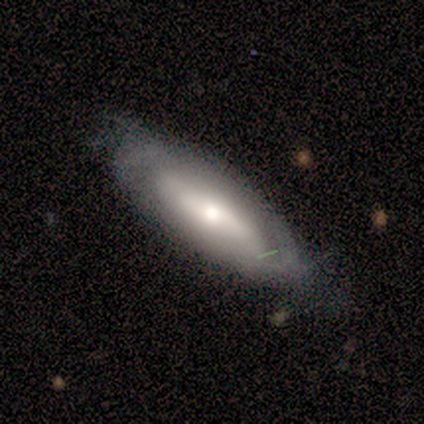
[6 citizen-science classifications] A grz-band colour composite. It shows a featured or disk galaxy (67%) viewed edge-on (75%) with a rounded central bulge (67%). Merging: none (60%).